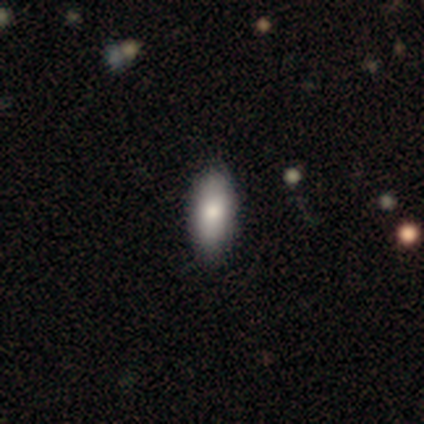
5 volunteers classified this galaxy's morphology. This appears to be a smooth galaxy with no disk features (80%) that is in between round and cigar-shaped (100%). Merging: none (100%).